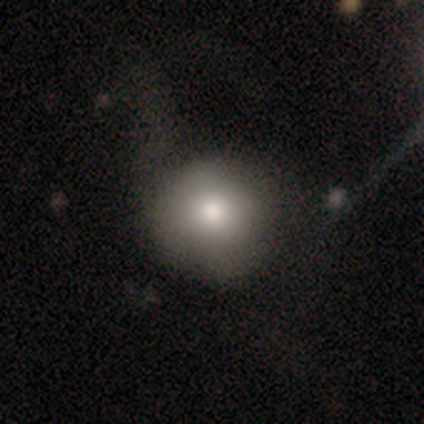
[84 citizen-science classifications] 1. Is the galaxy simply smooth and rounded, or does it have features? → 70% smooth, 15% featured or disk, 14% star or artifact.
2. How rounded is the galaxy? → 93% round, 7% in between, 0% cigar-shaped.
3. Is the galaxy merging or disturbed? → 57% none, 26% major disturbance, 17% minor disturbance, 0% merger.